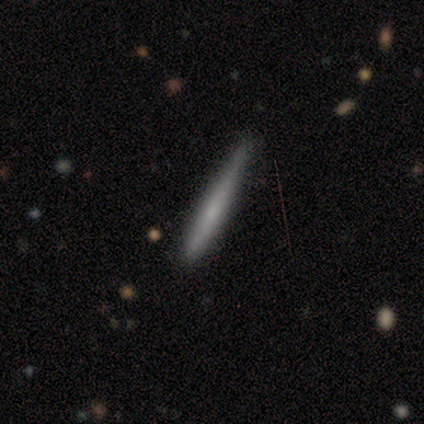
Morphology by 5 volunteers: Smooth or featured: smooth — 60% (featured or disk — 40%)
How rounded: cigar-shaped — 100%
Merging: none — 40% (tied with minor disturbance — 40%)